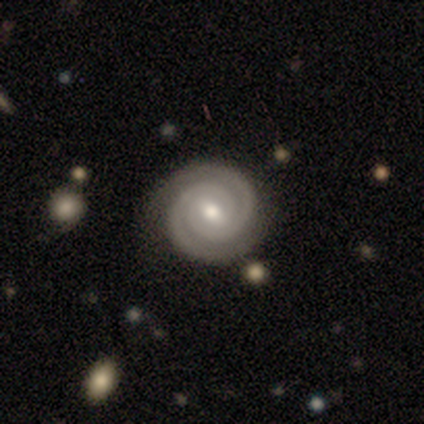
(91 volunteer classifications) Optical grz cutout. It shows a featured or disk galaxy (90%) with a weak bar (64%), 2 (88%) tight (97%) spiral arms (97%) and a moderate central bulge (69%). Merging: none (80%).